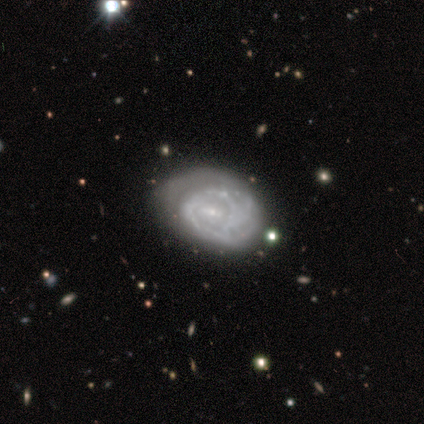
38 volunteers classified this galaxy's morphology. Overall: featured or disk (74%). Edge-on disk: no (100%). Bar: weak (64%; no 29%). Spiral arms: yes (79%). Spiral arm count: can't tell (64%). Spiral winding: tight (59%; medium 23%). Bulge size: small (89%). Merging: none (45%; major disturbance 32%).